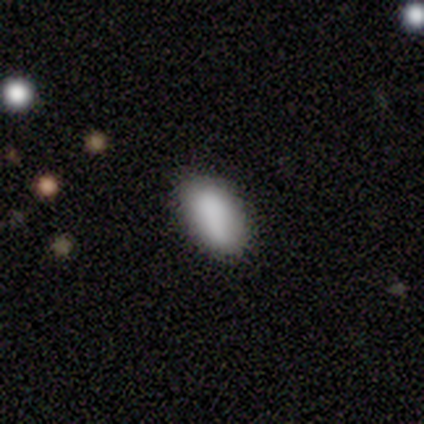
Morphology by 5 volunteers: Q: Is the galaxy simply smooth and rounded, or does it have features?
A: smooth — 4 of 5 (80%).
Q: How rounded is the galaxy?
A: in between — 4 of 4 (100%).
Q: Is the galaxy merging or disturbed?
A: none — 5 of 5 (100%).